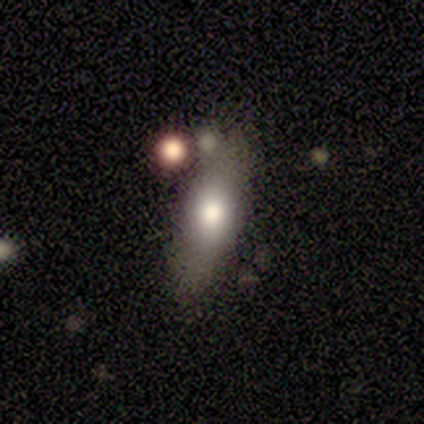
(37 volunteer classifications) Smooth or featured?
  - smooth: 68% *
  - featured or disk: 19%
  - star or artifact: 14%
How rounded?
  - in between: 64% *
  - cigar-shaped: 32%
  - round: 4%
Merging?
  - none: 75% *
  - minor disturbance: 16%
  - merger: 6%
  - major disturbance: 3%